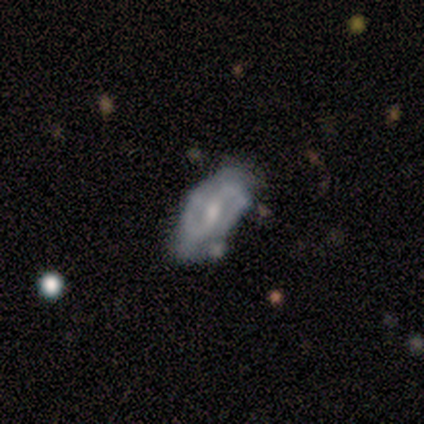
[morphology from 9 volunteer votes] type=featured or disk (100%); edge-on=no (89%); bar=no (50%); spiral arms=yes (100%); winding=medium (38%, tied with loose); arm count=2 (75%); bulge=moderate (50%); merging=none (78%).